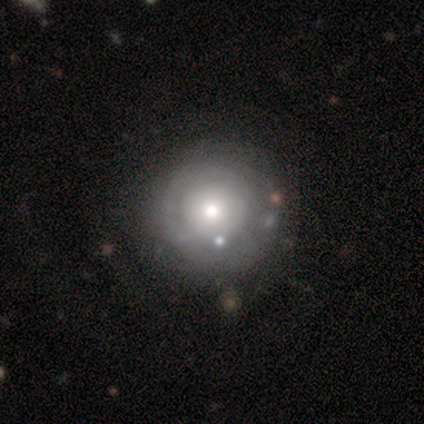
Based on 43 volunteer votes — This appears to be a featured or disk galaxy (51%) with no bar (95%), no spiral arms (76%) and a moderate central bulge (62%). Merging: none (55%).